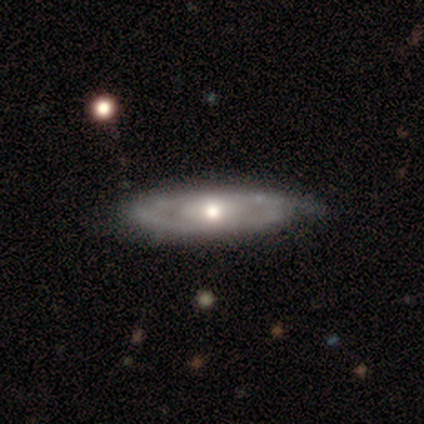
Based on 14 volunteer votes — Morphology: type=featured or disk (79%); edge-on=no (73%); bar=no (88%); spiral arms=yes (62%); winding=tight (60%); arm count=can't tell (60%); bulge=moderate (75%); merging=none (64%).